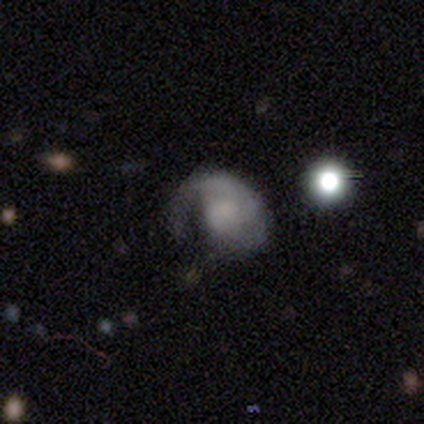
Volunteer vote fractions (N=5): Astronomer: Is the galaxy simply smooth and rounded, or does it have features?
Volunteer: smooth — 60% (runner-up: featured or disk, 40%).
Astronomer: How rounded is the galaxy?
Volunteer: round — 67%.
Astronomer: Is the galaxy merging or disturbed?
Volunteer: major disturbance — 60%.